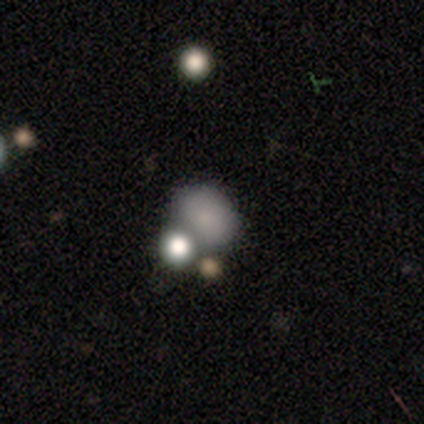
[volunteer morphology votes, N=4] This is likely a smooth galaxy (75%). How rounded: likely round (67%). Merging: clearly none (100%).